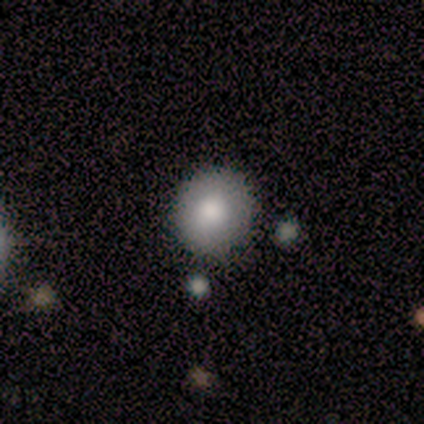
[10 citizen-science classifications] smooth 80%, featured or disk 10%, star or artifact 10%. Down the decision tree: how rounded — round (88%); merging — none (100%).